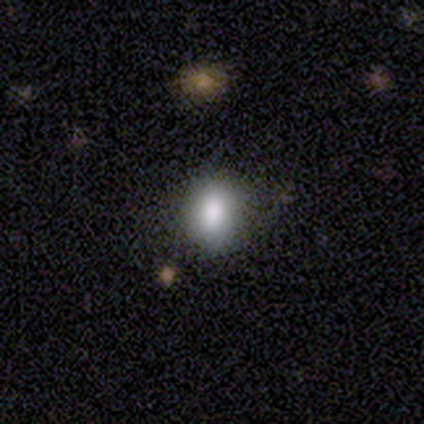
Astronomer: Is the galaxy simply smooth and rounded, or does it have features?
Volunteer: smooth — 69%.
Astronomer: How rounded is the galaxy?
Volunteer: round — 56% (runner-up: in between, 44%).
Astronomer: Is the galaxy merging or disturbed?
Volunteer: none — 81%.